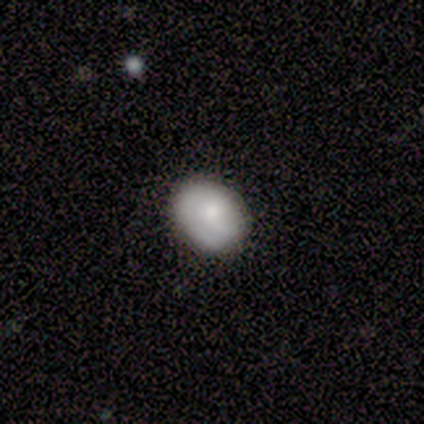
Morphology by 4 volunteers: smooth_or_featured: smooth (p=0.50) [tied with: featured or disk p=0.50]
how_rounded: in between (p=1.00)
merging: none (p=1.00)